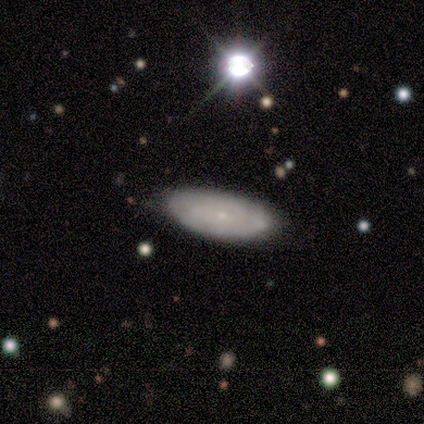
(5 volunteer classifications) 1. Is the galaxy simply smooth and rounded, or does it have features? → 60% smooth, 40% featured or disk, 0% star or artifact.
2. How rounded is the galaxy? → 100% in between, 0% round, 0% cigar-shaped.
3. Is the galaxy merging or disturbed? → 60% none, 40% minor disturbance, 0% major disturbance, 0% merger.